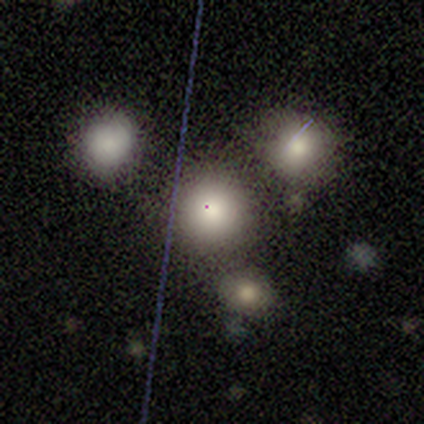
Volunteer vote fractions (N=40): Smooth or featured?
  - smooth: 65% *
  - star or artifact: 25%
  - featured or disk: 10%
How rounded?
  - round: 88% *
  - in between: 12%
  - cigar-shaped: 0%
Merging?
  - none: 63% *
  - merger: 27%
  - minor disturbance: 7%
  - major disturbance: 3%